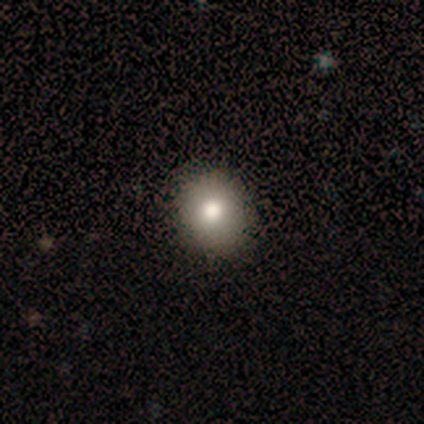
Smooth or featured: smooth — 100%
How rounded: round — 80% (in between — 20%)
Merging: none — 60% (minor disturbance — 40%)